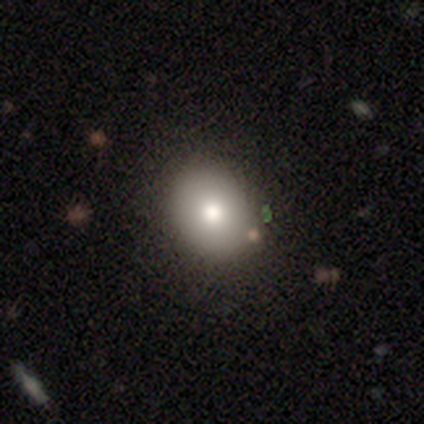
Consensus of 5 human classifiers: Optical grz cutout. It shows a smooth galaxy with no disk features (80%) that is in between round and cigar-shaped (75%). Merging: none (50%).